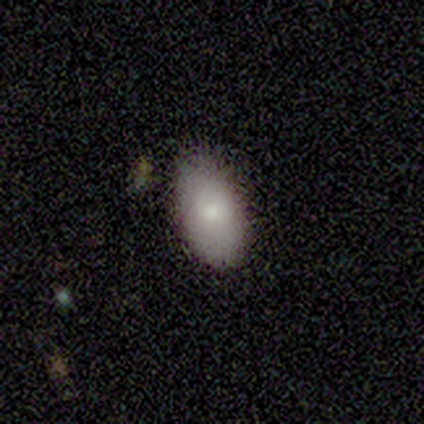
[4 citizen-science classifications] Volunteers were most divided on "merging": none: 75%, merger: 25%, minor disturbance: 0%, major disturbance: 0%. More confident: smooth or featured — smooth (100%); how rounded — in between (100%).